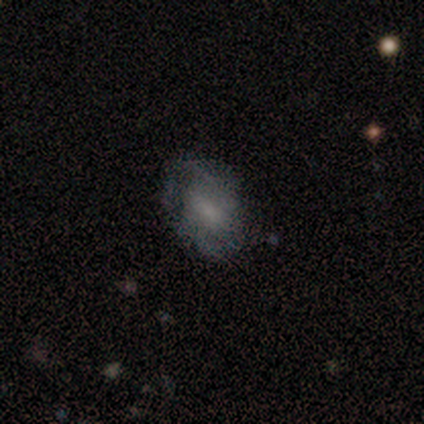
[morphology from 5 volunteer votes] type=smooth (60%); roundness=in between (67%); merging=none (40%, tied with minor disturbance).